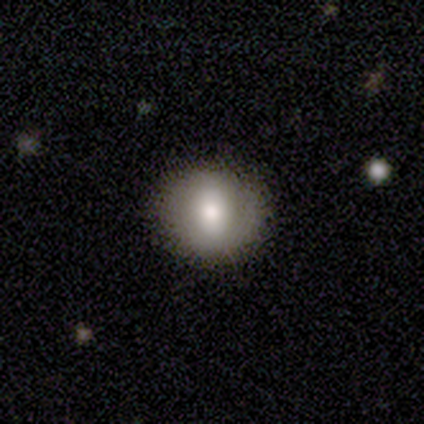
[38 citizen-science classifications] A smooth galaxy with no disk features (58%) that is round (82%). Merging: none (94%).